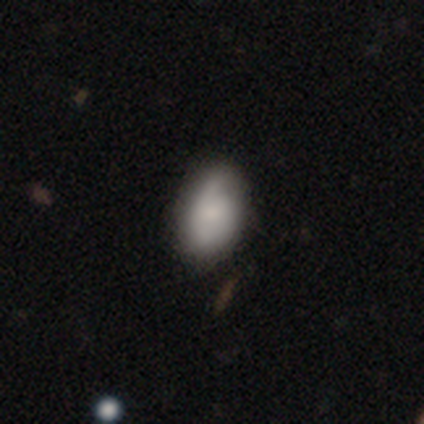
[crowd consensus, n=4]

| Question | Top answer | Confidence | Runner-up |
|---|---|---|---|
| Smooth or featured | smooth | 50% | featured or disk (25%) |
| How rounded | round | 50% | tied: in between (50%) |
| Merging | none | 67% | minor disturbance (33%) |